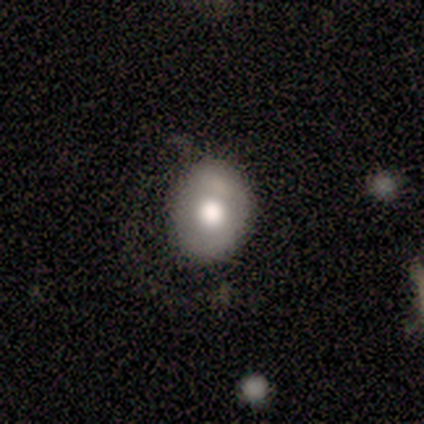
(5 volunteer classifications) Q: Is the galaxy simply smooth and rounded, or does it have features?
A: smooth — 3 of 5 (60%).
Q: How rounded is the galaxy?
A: round — 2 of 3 (67%).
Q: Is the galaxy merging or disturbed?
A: none — 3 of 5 (60%).